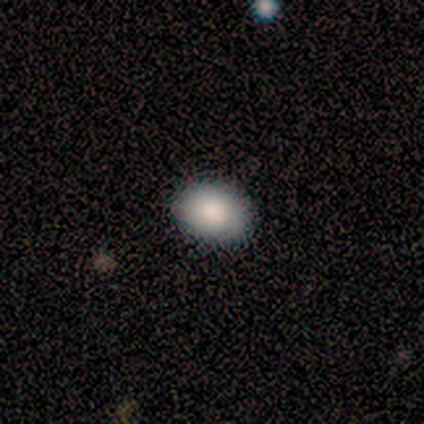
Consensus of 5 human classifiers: Smooth or featured? 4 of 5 (80%) said smooth. How rounded? 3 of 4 (75%) said in between. Merging? 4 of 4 (100%) said none.